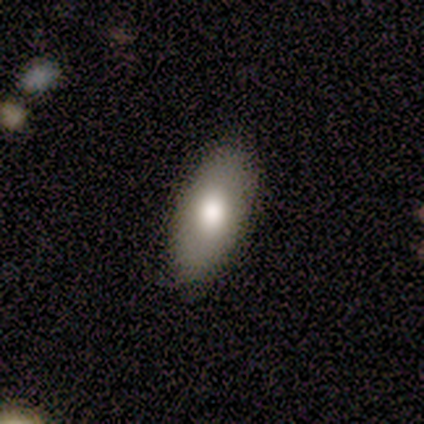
Q: Smooth or featured?
A: smooth (80%); runner-up: featured or disk (20%)
Q: How rounded?
A: in between (100%)
Q: Merging?
A: none (100%)